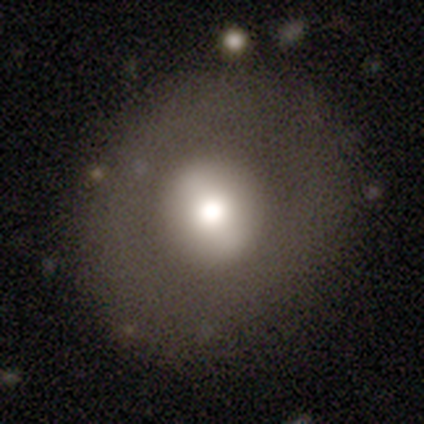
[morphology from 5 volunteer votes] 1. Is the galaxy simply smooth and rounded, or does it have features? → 40% smooth (tied), 40% featured or disk (tied), 20% star or artifact.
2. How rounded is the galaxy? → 50% round (tied), 50% in between (tied), 0% cigar-shaped.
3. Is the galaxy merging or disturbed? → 75% none, 25% major disturbance, 0% minor disturbance, 0% merger.